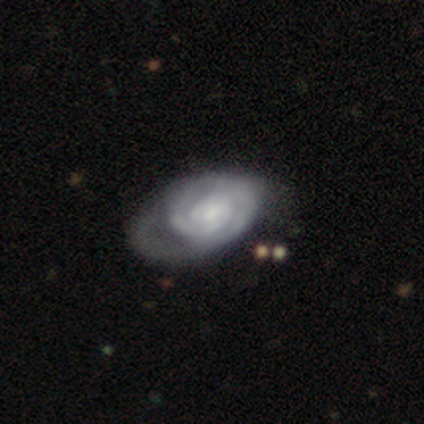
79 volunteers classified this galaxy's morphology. This is clearly a featured or disk galaxy (89%). It is clearly not viewed edge-on (96%). Bar: likely no (72%). Spiral arm pattern: clearly yes (88%). Spiral arm count: possibly 2 (59%). Spiral winding: likely tight (71%). Central bulge: possibly small (52%). Merging: marginally minor disturbance (17%, tied with major disturbance).